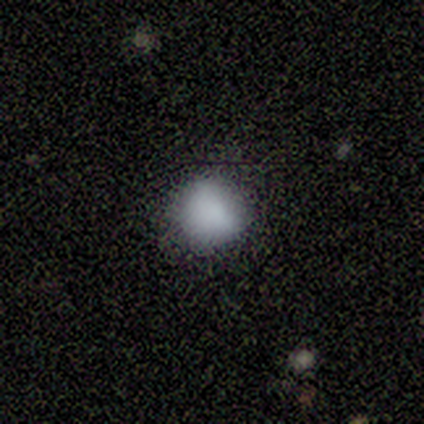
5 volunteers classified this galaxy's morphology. Volunteers were most divided on "how rounded": round: 75%, in between: 25%, cigar-shaped: 0%. More confident: smooth or featured — smooth (80%); merging — none (75%).